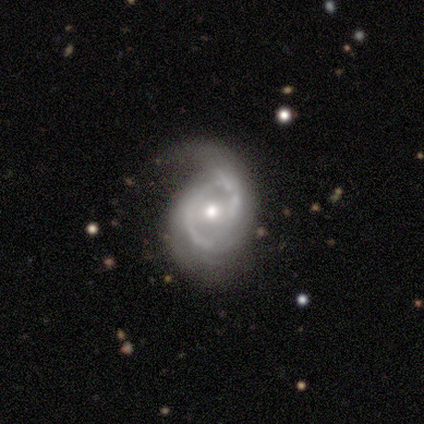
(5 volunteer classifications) Q: Smooth or featured?
A: featured or disk (100%)
Q: Edge-on disk?
A: no (80%); runner-up: yes (20%)
Q: Bar?
A: weak (50%); tied with: no (50%)
Q: Spiral arms?
A: yes (75%); runner-up: no (25%)
Q: Spiral winding?
A: medium (67%); runner-up: loose (33%)
Q: Spiral arm count?
A: 2 (100%)
Q: Bulge size?
A: moderate (100%)
Q: Merging?
A: none (40%); tied with: major disturbance (40%)